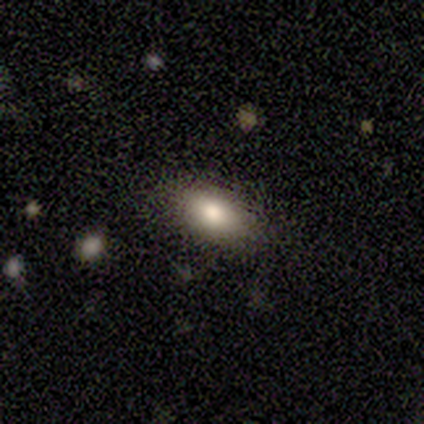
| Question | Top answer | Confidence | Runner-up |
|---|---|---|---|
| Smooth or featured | smooth | 100% | — |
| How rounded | in between | 60% | cigar-shaped (40%) |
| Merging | none | 100% | — |